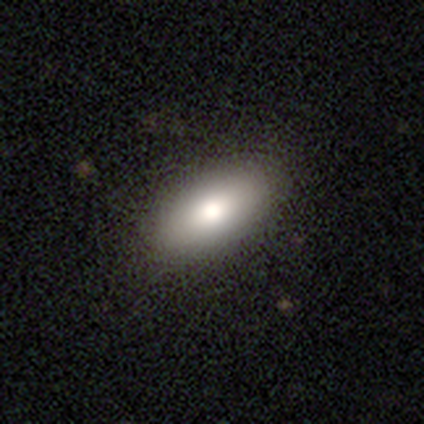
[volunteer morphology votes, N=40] A smooth galaxy with no disk features (80%) that is in between round and cigar-shaped (97%). Merging: none (62%).